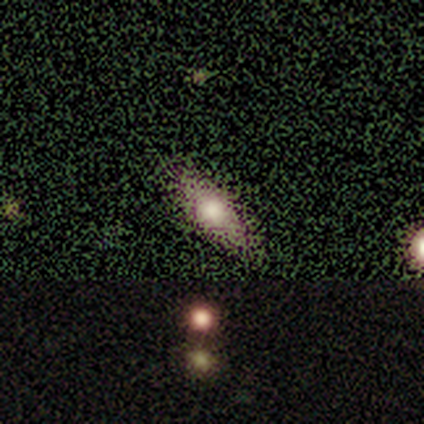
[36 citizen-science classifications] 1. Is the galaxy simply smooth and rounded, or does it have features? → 61% smooth, 22% featured or disk, 17% star or artifact.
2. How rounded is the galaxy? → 68% in between, 23% cigar-shaped, 9% round.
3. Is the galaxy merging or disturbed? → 93% none, 3% minor disturbance, 3% major disturbance, 0% merger.